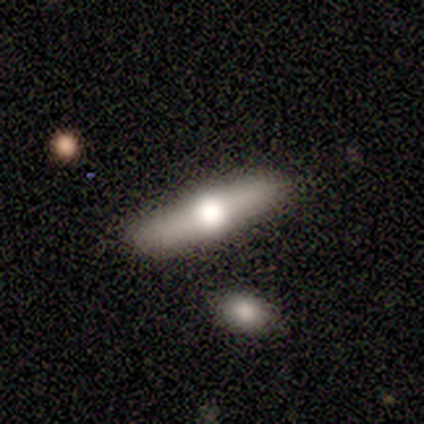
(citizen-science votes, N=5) This is likely a featured or disk galaxy (60%). It is clearly viewed edge-on (100%). Edge-on bulge: likely rounded (67%). Merging: likely none (75%).